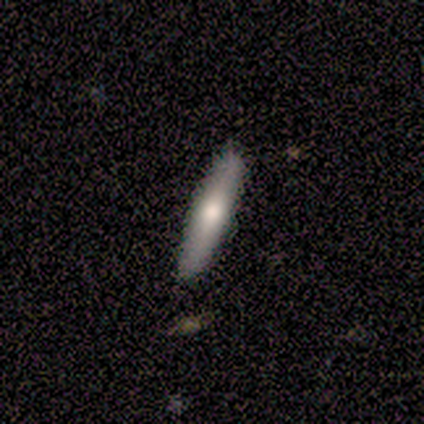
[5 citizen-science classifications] Smooth or featured?
  - featured or disk: 80% *
  - smooth: 20%
  - star or artifact: 0%
Edge-on disk?
  - yes: 75% *
  - no: 25%
Edge-on bulge?
  - boxy: 33% * (tied)
  - none: 33% * (tied)
  - rounded: 33% * (tied)
Merging?
  - none: 80% *
  - minor disturbance: 20%
  - major disturbance: 0%
  - merger: 0%